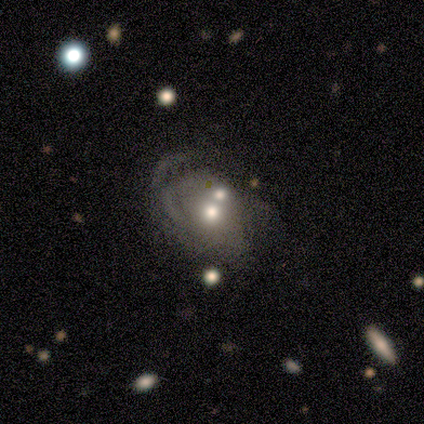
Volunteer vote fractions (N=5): Morphology: type=smooth (40%, tied with star or artifact); roundness=in between (100%); merging=merger (67%).